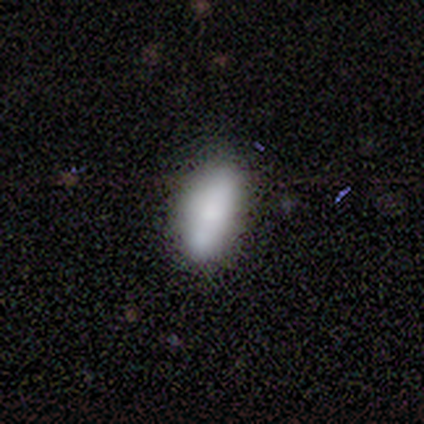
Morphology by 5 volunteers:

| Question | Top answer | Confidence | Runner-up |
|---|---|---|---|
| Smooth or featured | smooth | 80% | featured or disk (20%) |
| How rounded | in between | 100% | — |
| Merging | none | 80% | minor disturbance (20%) |